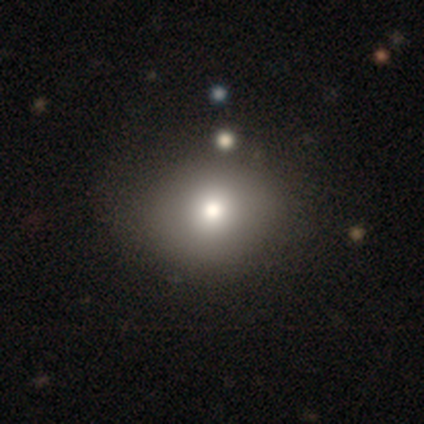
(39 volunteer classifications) Smooth or featured? smooth (72%)
How rounded? round (68%)
Merging? none (79%)